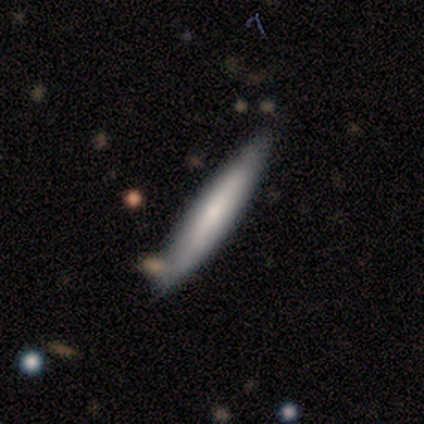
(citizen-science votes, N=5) smooth-or-featured: featured or disk: 60% | smooth: 40% | star or artifact: 0%
  disk-edge-on: yes: 67% | no: 33%
    edge-on-bulge: none: 50% (tied) | rounded: 50% (tied) | boxy: 0%
  merging: none: 80% | minor disturbance: 20% | major disturbance: 0% | merger: 0%